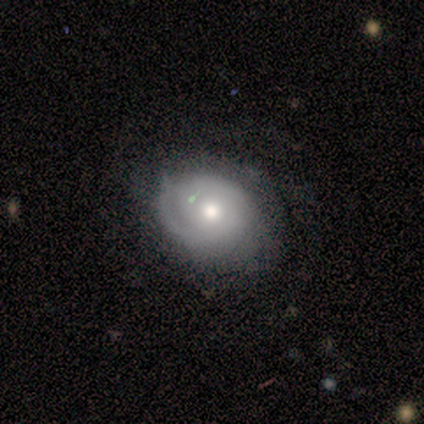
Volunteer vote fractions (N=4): This is possibly a smooth galaxy (50%, tied with featured or disk). How rounded: clearly round (100%). Merging: possibly none (50%, tied with minor disturbance).